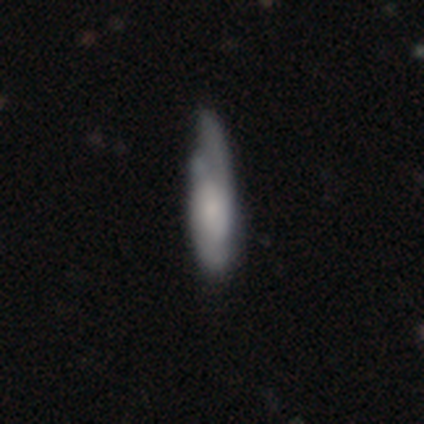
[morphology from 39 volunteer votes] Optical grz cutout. It shows a smooth galaxy with no disk features (56%) that is cigar-shaped (73%). Merging: minor disturbance (47%).